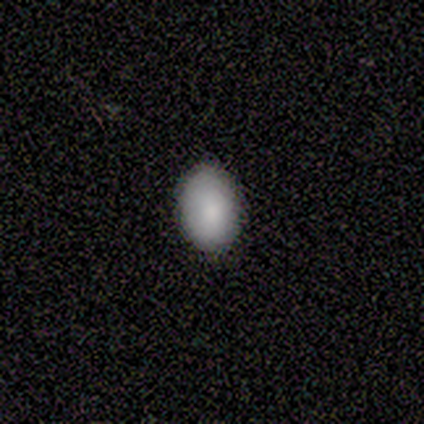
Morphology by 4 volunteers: This appears to be a smooth galaxy with no disk features (100%) that is in between round and cigar-shaped (75%). Merging: none (75%).